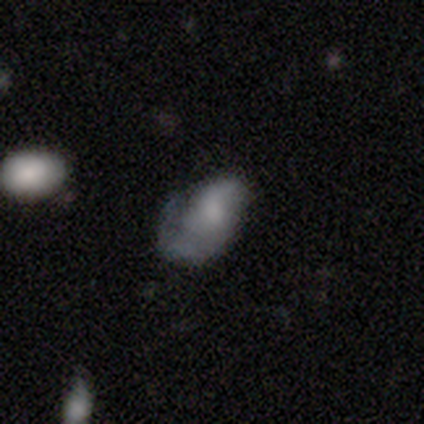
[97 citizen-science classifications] A smooth galaxy with no disk features (51%) that is in between round and cigar-shaped (90%).

Vote fractions:
- Smooth or featured? smooth: 51% / featured or disk: 44% / star or artifact: 5%
- How rounded? in between: 90% / round: 8% / cigar-shaped: 2%
- Merging? minor disturbance: 35% / none: 34% / major disturbance: 28% / merger: 3%